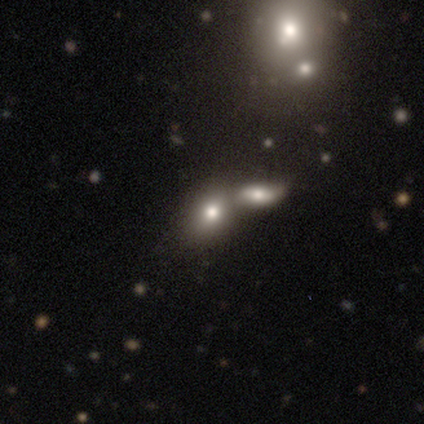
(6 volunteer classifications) Smooth or featured? 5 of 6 (83%) said smooth. How rounded? 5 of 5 (100%) said in between. Merging? 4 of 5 (80%) said merger.